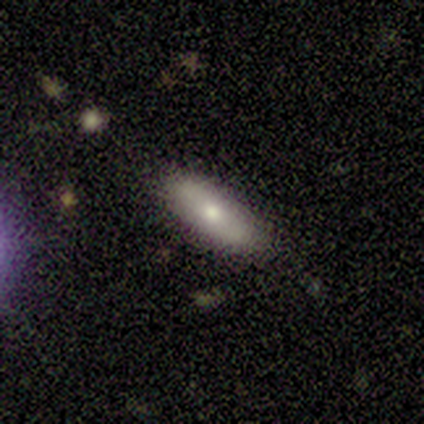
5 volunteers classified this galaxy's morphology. Volunteers were most divided on "smooth or featured": smooth: 60%, featured or disk: 40%, star or artifact: 0%. More confident: merging — none (100%); how rounded — in between (67%).